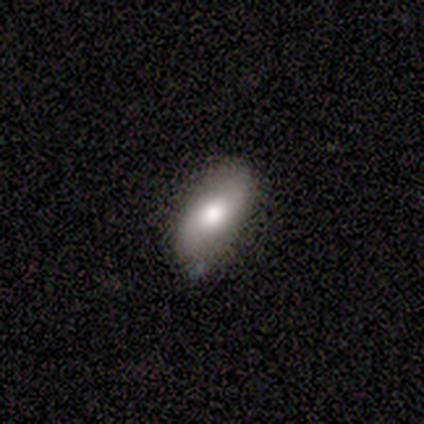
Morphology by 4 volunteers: A smooth galaxy with no disk features (50%, tied with featured or disk) that is in between round and cigar-shaped (100%).

Vote fractions:
- Smooth or featured? smooth: 50% (tied) / featured or disk: 50% (tied) / star or artifact: 0%
- How rounded? in between: 100% / round: 0% / cigar-shaped: 0%
- Merging? none: 75% / minor disturbance: 25% / major disturbance: 0% / merger: 0%